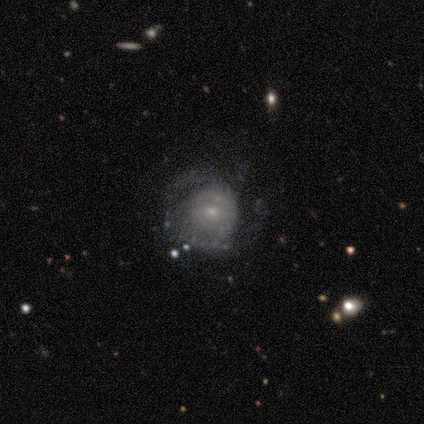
A featured or disk galaxy (60%) with no bar (100%), no spiral arms (67%) and a small central bulge (67%).

Vote fractions:
- Smooth or featured? featured or disk: 60% / smooth: 40% / star or artifact: 0%
- Edge-on disk? no: 100% / yes: 0%
- Bar? no: 100% / strong: 0% / weak: 0%
- Spiral arms? no: 67% / yes: 33%
- Bulge size? small: 67% / moderate: 33% / dominant: 0% / large: 0% / none: 0%
- Merging? none: 100% / minor disturbance: 0% / major disturbance: 0% / merger: 0%